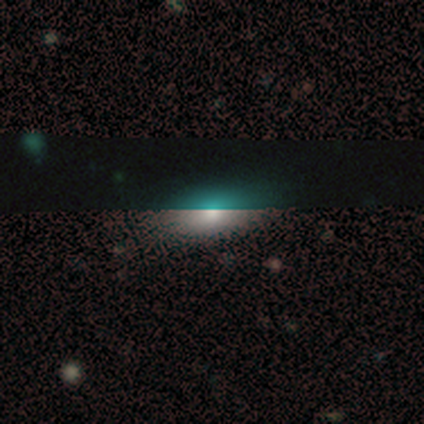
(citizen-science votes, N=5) smooth_or_featured: featured or disk (p=0.40) [tied with: star or artifact p=0.40]
disk_edge_on: no (p=1.00)
bar: no (p=1.00)
has_spiral_arms: no (p=1.00)
bulge_size: large (p=0.50) [tied with: moderate p=0.50]
merging: none (p=0.67) [alt: minor disturbance p=0.33]